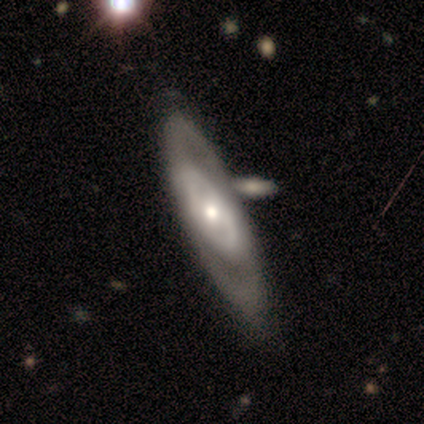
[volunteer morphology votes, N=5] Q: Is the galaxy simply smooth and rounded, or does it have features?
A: featured or disk — 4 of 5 (80%).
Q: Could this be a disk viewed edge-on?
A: no — 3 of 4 (75%).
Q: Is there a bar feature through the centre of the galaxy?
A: no — 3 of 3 (100%).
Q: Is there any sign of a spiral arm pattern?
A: no — 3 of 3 (100%).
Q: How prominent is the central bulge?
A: small — 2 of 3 (67%).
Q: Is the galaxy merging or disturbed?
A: none — 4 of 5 (80%).